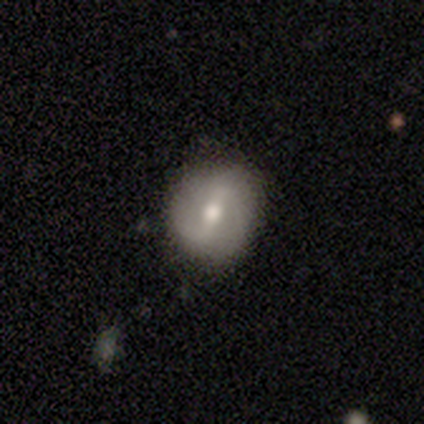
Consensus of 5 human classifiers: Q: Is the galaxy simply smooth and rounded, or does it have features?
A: featured or disk — 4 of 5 (80%).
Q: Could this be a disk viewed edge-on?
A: no — 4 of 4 (100%).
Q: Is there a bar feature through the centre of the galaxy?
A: weak — 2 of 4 (50%).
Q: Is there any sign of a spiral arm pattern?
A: yes — 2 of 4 (50%, tied with no).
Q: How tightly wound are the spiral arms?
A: tight — 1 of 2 (50%, tied with loose).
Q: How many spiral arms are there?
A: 2 — 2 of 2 (100%).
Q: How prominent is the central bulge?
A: moderate — 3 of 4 (75%).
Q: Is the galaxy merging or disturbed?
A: none — 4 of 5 (80%).